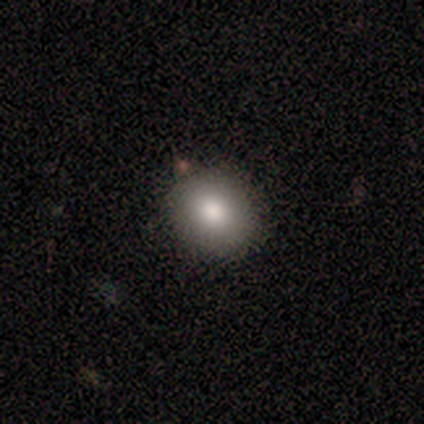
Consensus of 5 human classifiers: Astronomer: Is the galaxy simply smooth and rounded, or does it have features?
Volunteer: smooth — 80%.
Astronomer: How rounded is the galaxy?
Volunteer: round — 75%.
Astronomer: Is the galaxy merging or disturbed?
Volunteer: none — 100%.